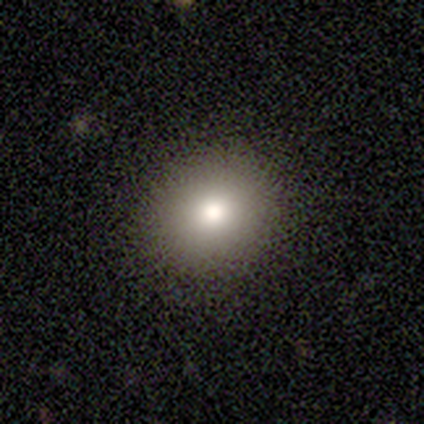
smooth 91%, star or artifact 9%, featured or disk 0%. Down the decision tree: how rounded — in between (60%); merging — none (90%).